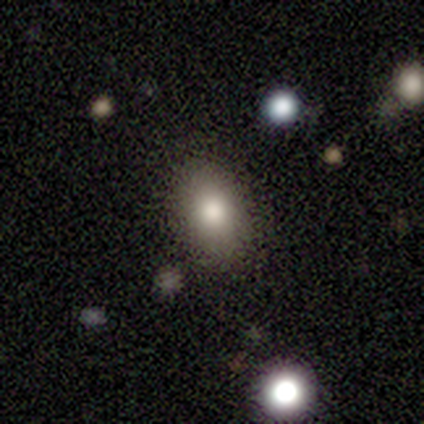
A smooth galaxy with no disk features (100%) that is in between round and cigar-shaped (75%). Merging: none (100%).